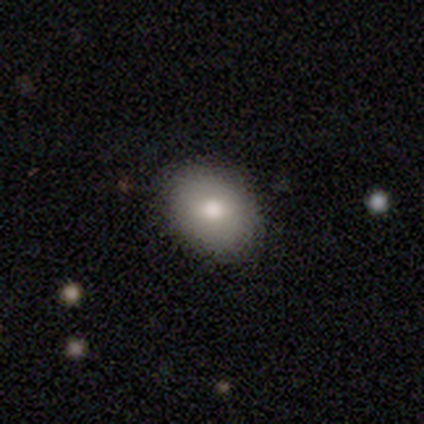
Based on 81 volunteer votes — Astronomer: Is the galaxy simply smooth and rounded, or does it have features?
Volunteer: smooth — 80%.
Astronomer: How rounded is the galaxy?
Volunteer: in between — 71%.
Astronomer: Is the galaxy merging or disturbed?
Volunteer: none — 44%.